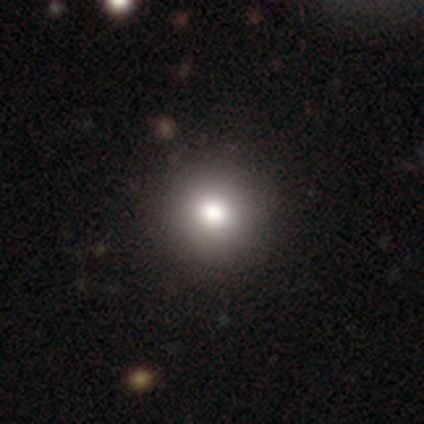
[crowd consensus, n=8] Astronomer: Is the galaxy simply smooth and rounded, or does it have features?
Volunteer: smooth — 62%.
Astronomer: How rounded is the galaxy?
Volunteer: round — 100%.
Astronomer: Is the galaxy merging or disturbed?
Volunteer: none — 100%.